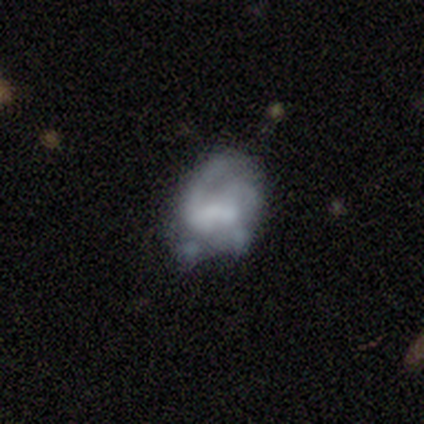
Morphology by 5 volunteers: A smooth galaxy with no disk features (60%) that is in between round and cigar-shaped (67%). Merging: none (40%, tied with minor disturbance).